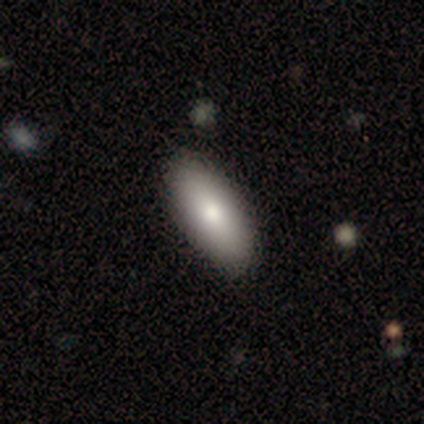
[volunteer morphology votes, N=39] type=smooth (79%); roundness=in between (94%); merging=none (68%).